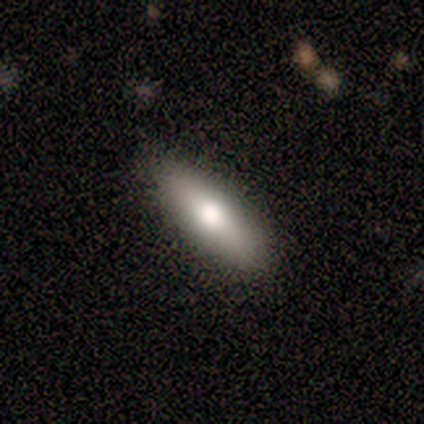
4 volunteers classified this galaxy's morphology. type=smooth (75%); roundness=cigar-shaped (67%); merging=none (100%).